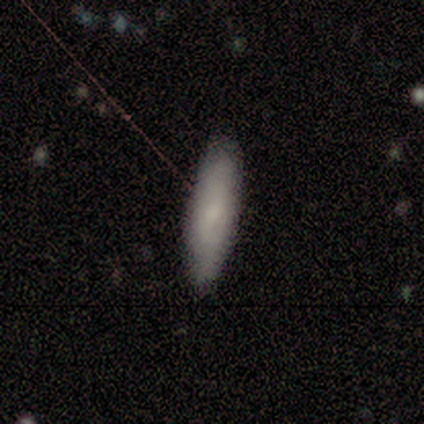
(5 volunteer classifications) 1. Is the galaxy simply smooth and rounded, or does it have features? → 60% smooth, 40% featured or disk, 0% star or artifact.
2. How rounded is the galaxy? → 67% in between, 33% cigar-shaped, 0% round.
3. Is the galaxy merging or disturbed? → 80% none, 20% minor disturbance, 0% major disturbance, 0% merger.